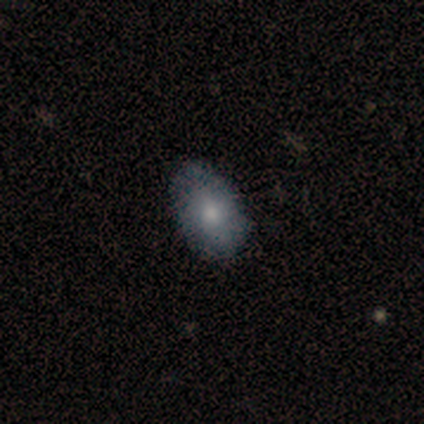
Overall: smooth (70%). How rounded: in between (100%). Merging: none (87%).